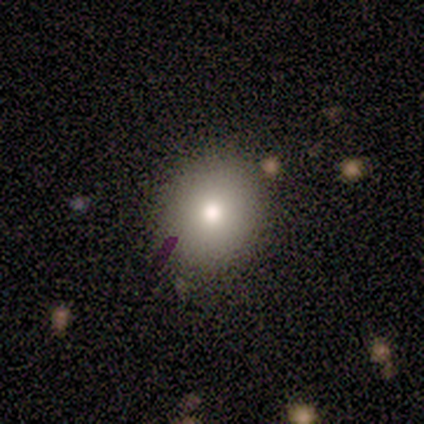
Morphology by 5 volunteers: Smooth or featured: featured or disk — 40% (tied with star or artifact — 40%)
Edge-on disk: no — 100%
Bar: no — 100%
Spiral arms: yes — 50% (tied with no — 50%)
Spiral winding: tight — 100%
Spiral arm count: can't tell — 100%
Bulge size: moderate — 50% (tied with small — 50%)
Merging: none — 33% (tied with minor disturbance — 33%; major disturbance — 33%)